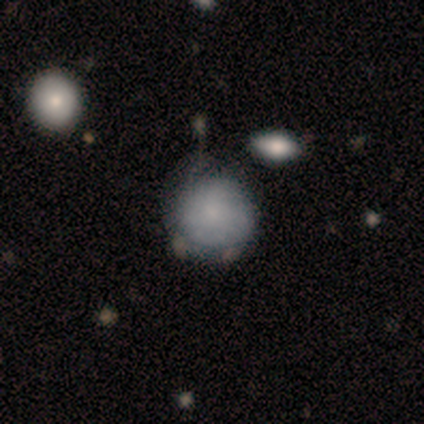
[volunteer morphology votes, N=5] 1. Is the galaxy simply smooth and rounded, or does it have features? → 60% smooth, 40% featured or disk, 0% star or artifact.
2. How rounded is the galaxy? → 100% round, 0% in between, 0% cigar-shaped.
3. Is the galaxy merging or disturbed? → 40% none (tied), 40% minor disturbance (tied), 20% merger, 0% major disturbance.